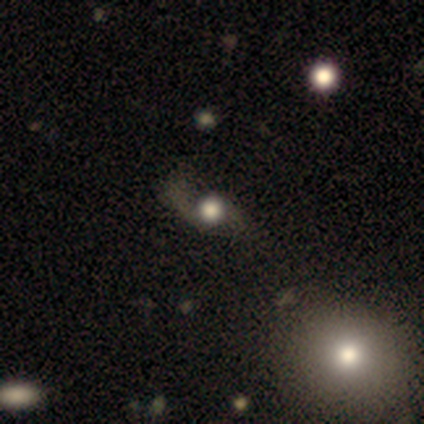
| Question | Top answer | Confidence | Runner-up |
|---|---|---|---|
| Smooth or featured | smooth | 50% | tied: featured or disk (50%) |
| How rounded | round | 50% | tied: in between (50%) |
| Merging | none | 50% | tied: major disturbance (50%) |